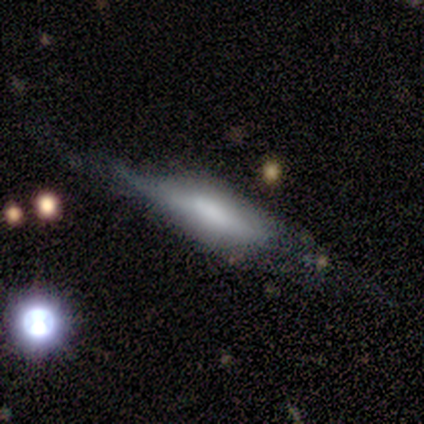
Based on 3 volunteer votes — Smooth or featured? featured or disk (100%)
Edge-on disk? yes (100%)
Edge-on bulge? boxy (67%)
Merging? none (67%)